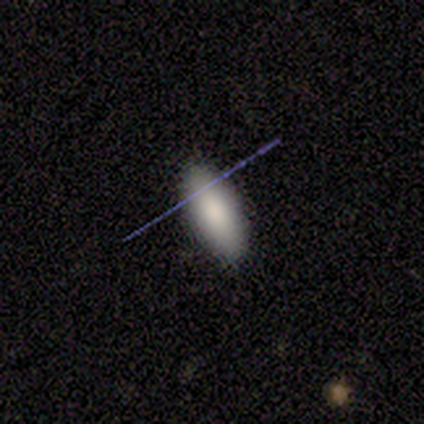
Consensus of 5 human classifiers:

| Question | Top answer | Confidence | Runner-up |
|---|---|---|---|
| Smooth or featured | smooth | 60% | featured or disk (20%) |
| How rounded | in between | 100% | — |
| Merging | none | 100% | — |